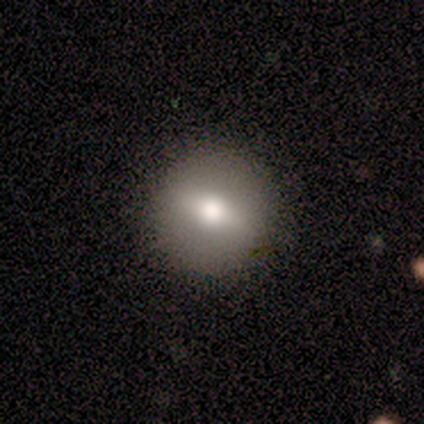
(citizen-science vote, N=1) smooth 100%, featured or disk 0%, star or artifact 0%. Down the decision tree: how rounded — round (100%); merging — none (100%).